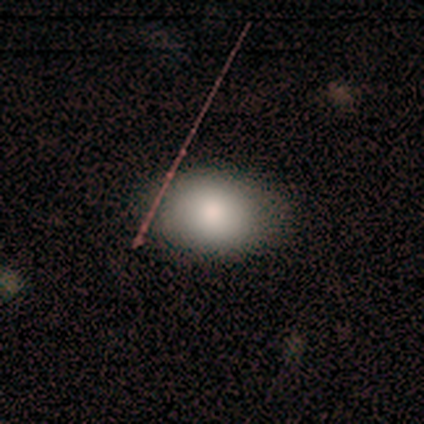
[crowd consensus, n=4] Morphology: type=smooth (50%, tied with star or artifact); roundness=in between (100%); merging=none (100%).